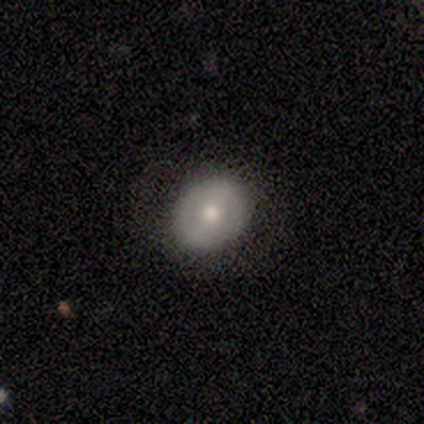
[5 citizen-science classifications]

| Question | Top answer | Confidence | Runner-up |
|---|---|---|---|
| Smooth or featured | smooth | 60% | featured or disk (40%) |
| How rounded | round | 100% | — |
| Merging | none | 80% | major disturbance (20%) |